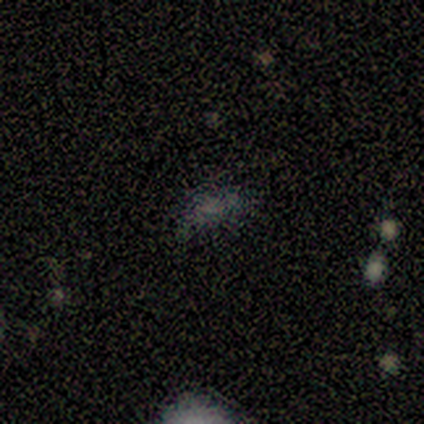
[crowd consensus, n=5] Overall: smooth (40%, tied with star or artifact). How rounded: in between (50%, tied with cigar-shaped). Merging: none (100%).